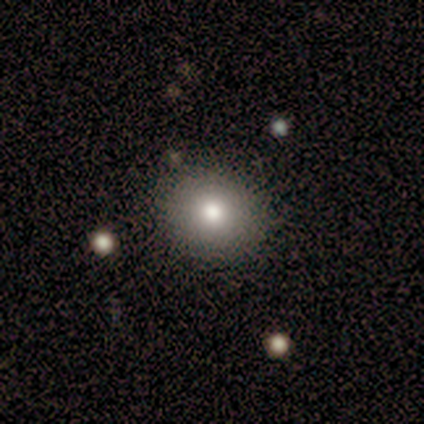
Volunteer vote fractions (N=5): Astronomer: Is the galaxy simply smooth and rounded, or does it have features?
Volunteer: smooth — 100%.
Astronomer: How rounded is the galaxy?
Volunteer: round — 60% (runner-up: in between, 40%).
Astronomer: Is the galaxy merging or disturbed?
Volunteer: none — 100%.